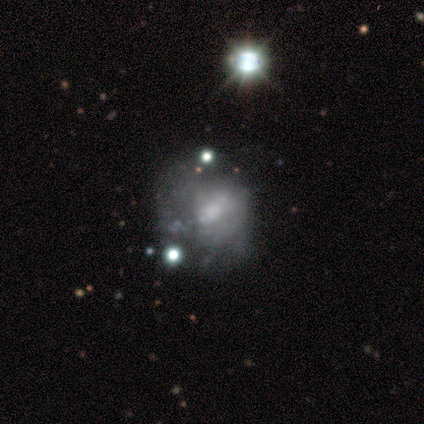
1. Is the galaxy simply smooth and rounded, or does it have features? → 80% featured or disk, 20% star or artifact, 0% smooth.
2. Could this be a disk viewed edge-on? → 100% no, 0% yes.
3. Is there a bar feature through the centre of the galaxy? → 75% no, 25% weak, 0% strong.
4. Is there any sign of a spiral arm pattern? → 100% no, 0% yes.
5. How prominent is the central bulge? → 75% small, 25% moderate, 0% dominant, 0% large, 0% none.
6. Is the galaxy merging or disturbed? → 25% none (tied), 25% minor disturbance (tied), 25% major disturbance (tied), 25% merger (tied).